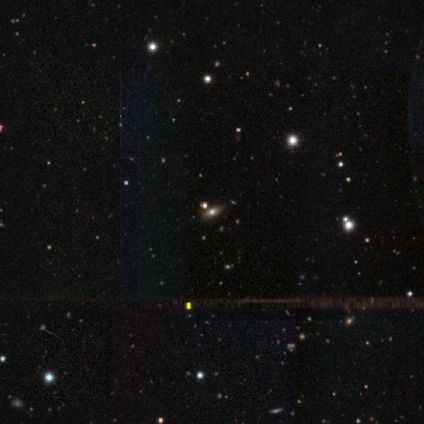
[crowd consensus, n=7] Morphology: type=star or artifact (43%).